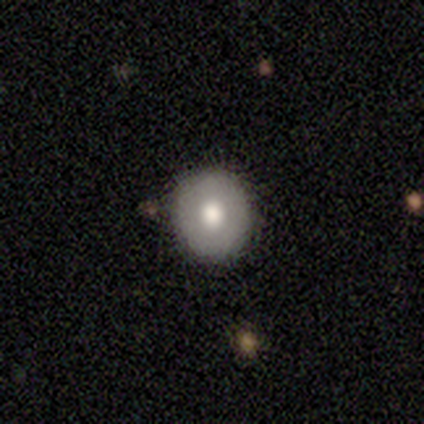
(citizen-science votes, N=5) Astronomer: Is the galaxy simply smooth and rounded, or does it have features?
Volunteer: smooth — 100%.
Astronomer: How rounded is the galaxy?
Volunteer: round — 100%.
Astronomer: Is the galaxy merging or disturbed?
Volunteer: none — 80%.